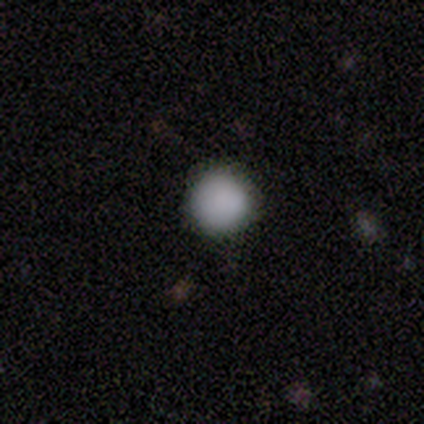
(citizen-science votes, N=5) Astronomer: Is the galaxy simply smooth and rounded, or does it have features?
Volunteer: smooth — 100%.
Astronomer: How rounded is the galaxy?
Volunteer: round — 100%.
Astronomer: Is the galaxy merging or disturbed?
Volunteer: none — 100%.